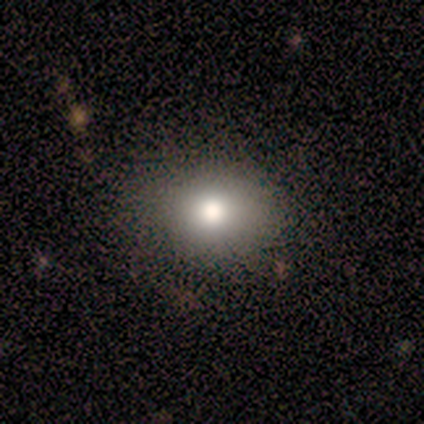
Morphology: type=smooth (100%); roundness=round (80%); merging=none (100%).